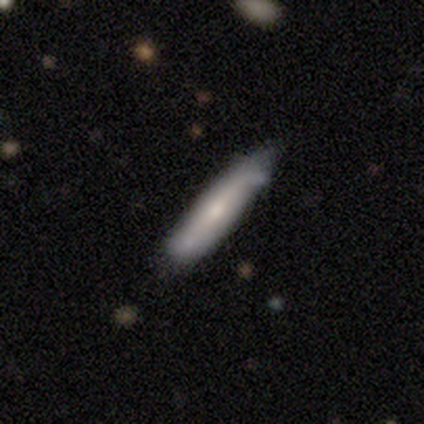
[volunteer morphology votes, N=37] This appears to be a smooth galaxy with no disk features (65%) that is cigar-shaped (83%). Merging: none (46%).